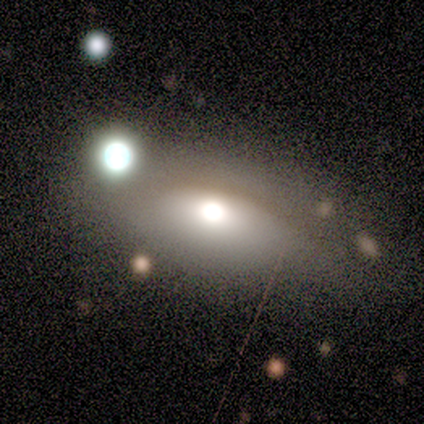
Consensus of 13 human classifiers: smooth 54%, featured or disk 46%, star or artifact 0%. Down the decision tree: how rounded — in between (57%); merging — none (54%).